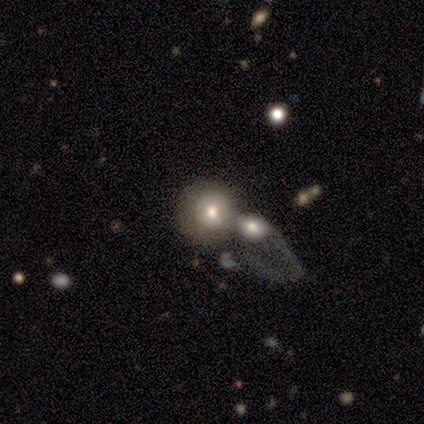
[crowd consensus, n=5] A smooth galaxy with no disk features (80%) that is round (100%). Merging: merger (80%).